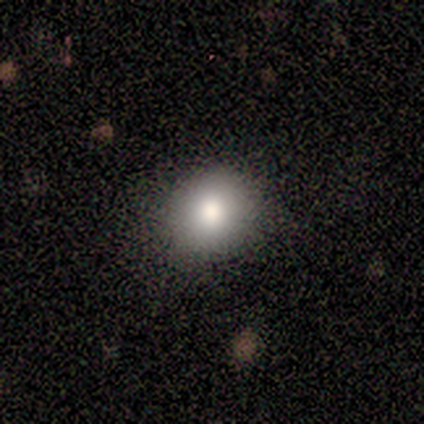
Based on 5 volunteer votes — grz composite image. It shows a smooth galaxy with no disk features (40%, tied with featured or disk) that is round (50%, tied with in between). Merging: none (100%).